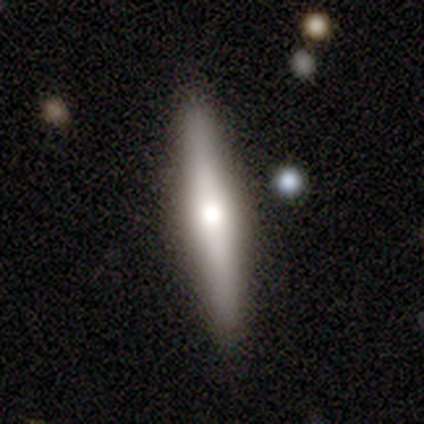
smooth 60%, featured or disk 40%, star or artifact 0%. Down the decision tree: how rounded — cigar-shaped (100%); merging — none (80%).